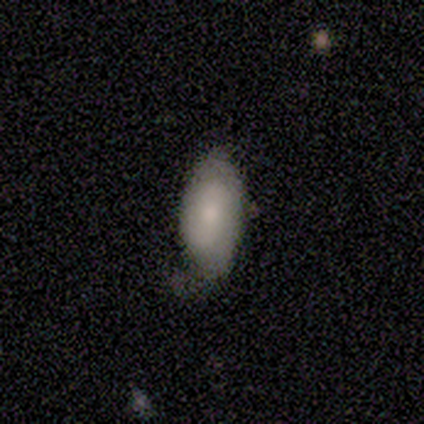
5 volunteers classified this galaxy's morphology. featured or disk 80%, smooth 20%, star or artifact 0%. Down the decision tree: edge-on disk — no (75%); bar — weak (67%); spiral arms — yes (67%); spiral arm count — 1 (50%, tied with can't tell); spiral winding — tight (50%, tied with medium); bulge size — small (67%); merging — none (100%).